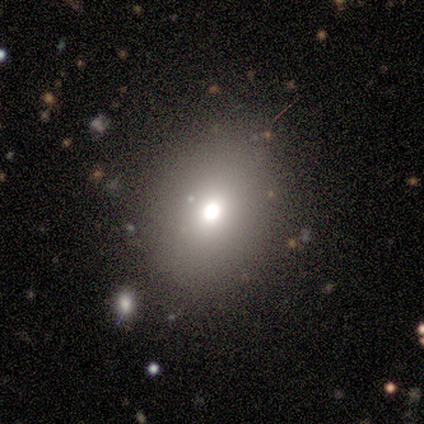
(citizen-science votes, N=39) smooth_or_featured: smooth (p=0.85) [alt: star or artifact p=0.13]
how_rounded: in between (p=0.55) [alt: round p=0.45]
merging: none (p=0.76) [alt: major disturbance p=0.09]